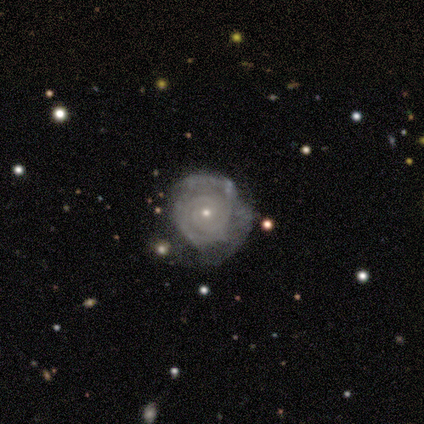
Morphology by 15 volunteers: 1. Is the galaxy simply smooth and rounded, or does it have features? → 73% featured or disk, 20% smooth, 7% star or artifact.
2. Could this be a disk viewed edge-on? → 100% no, 0% yes.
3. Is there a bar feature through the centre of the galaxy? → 91% no, 9% weak, 0% strong.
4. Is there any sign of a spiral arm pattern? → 91% yes, 9% no.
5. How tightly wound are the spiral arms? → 90% tight, 10% loose, 0% medium.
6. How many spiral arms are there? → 70% 2, 30% can't tell, 0% 1, 0% 3, 0% 4, 0% more than 4.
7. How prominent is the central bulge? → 82% small, 18% moderate, 0% dominant, 0% large, 0% none.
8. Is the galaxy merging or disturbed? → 64% none, 21% major disturbance, 14% minor disturbance, 0% merger.